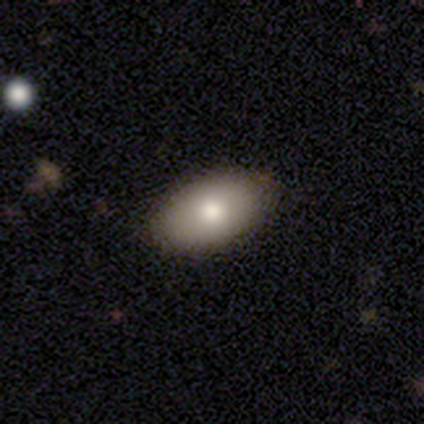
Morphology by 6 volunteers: This is clearly a smooth galaxy (100%). How rounded: clearly in between (100%). Merging: clearly none (100%).